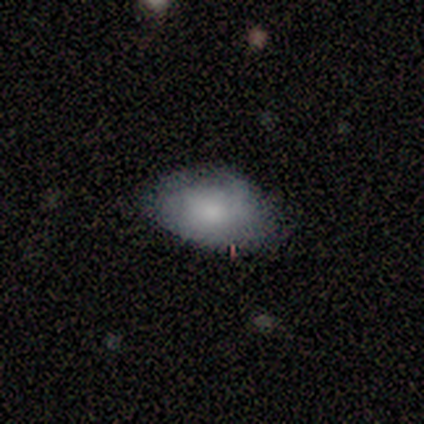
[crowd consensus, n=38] A smooth galaxy with no disk features (74%) that is in between round and cigar-shaped (96%).

Vote fractions:
- Smooth or featured? smooth: 74% / featured or disk: 13% / star or artifact: 13%
- How rounded? in between: 96% / round: 4% / cigar-shaped: 0%
- Merging? none: 58% / minor disturbance: 24% / major disturbance: 18% / merger: 0%